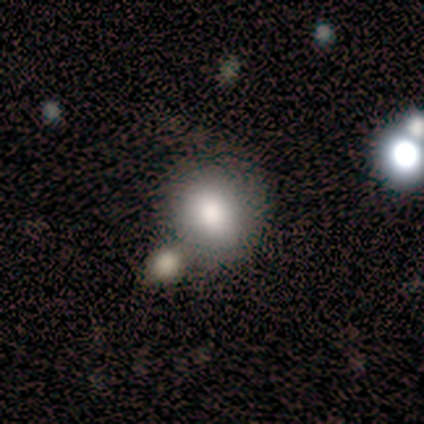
smooth 80%, featured or disk 20%, star or artifact 0%. Down the decision tree: how rounded — round (100%); merging — none (100%).